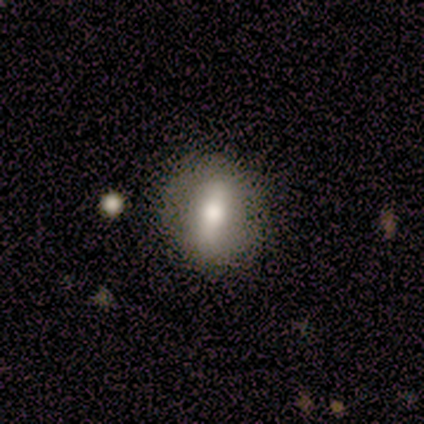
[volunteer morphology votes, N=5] Volunteers were most divided on "smooth or featured" (2-way tie): smooth: 40%, featured or disk: 40%, star or artifact: 20%. More confident: how rounded — round (100%); merging — none (100%).